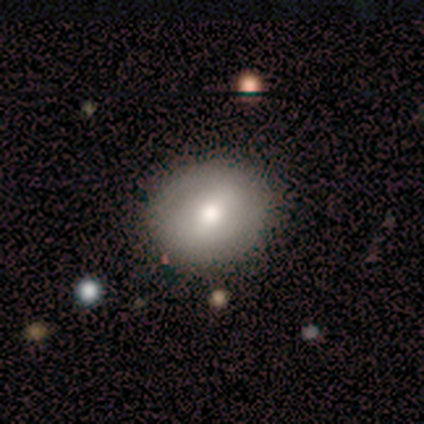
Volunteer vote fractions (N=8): Smooth or featured? smooth (62%)
How rounded? in between (60%)
Merging? none (86%)